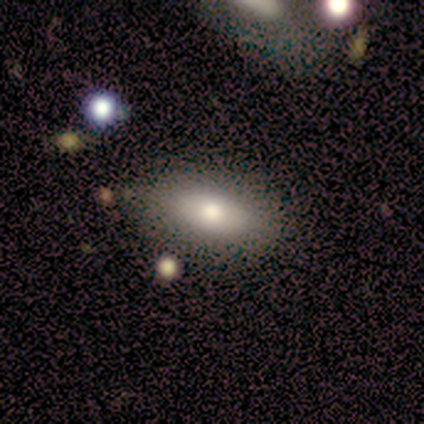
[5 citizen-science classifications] Q: Smooth or featured?
A: smooth (80%); runner-up: featured or disk (20%)
Q: How rounded?
A: in between (100%)
Q: Merging?
A: none (60%); runner-up: minor disturbance (40%)